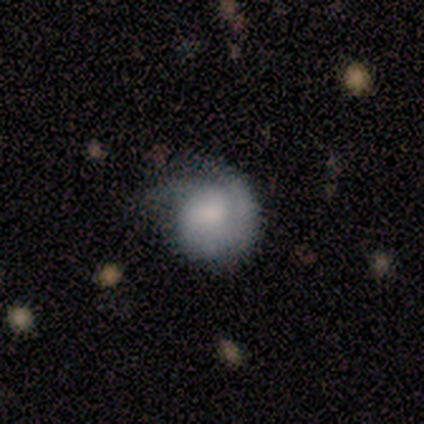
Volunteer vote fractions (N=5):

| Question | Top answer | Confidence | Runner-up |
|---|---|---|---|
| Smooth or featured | smooth | 40% | tied: featured or disk (40%) |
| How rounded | round | 50% | tied: in between (50%) |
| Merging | minor disturbance | 50% | none (25%) |